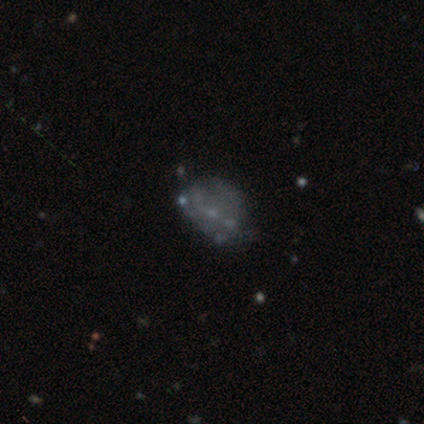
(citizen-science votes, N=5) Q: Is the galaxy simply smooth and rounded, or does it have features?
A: smooth — 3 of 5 (60%).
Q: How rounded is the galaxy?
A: round — 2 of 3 (67%).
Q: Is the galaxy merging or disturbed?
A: none — 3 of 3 (100%).